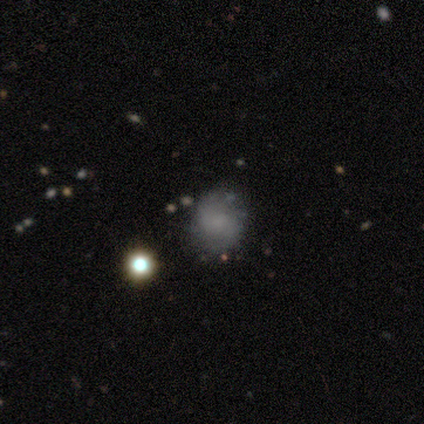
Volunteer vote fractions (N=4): Morphology: type=smooth (50%, tied with featured or disk); roundness=round (100%); merging=none (100%).